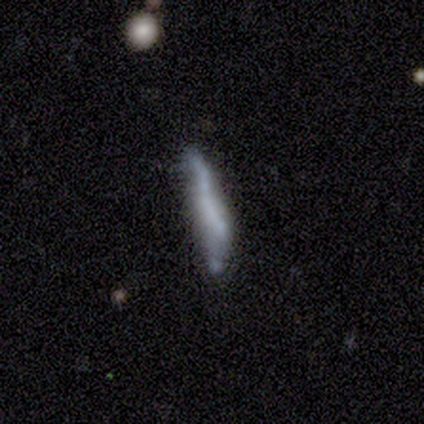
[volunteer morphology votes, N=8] Smooth or featured?
  - smooth: 62% *
  - featured or disk: 38%
  - star or artifact: 0%
How rounded?
  - cigar-shaped: 100% *
  - round: 0%
  - in between: 0%
Merging?
  - none: 50% *
  - minor disturbance: 25%
  - merger: 25%
  - major disturbance: 0%